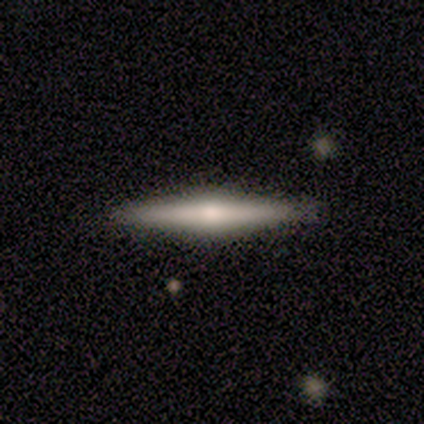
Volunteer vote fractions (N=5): Q: Smooth or featured?
A: featured or disk (80%); runner-up: smooth (20%)
Q: Edge-on disk?
A: yes (75%); runner-up: no (25%)
Q: Edge-on bulge?
A: rounded (67%); runner-up: boxy (33%)
Q: Merging?
A: none (100%)